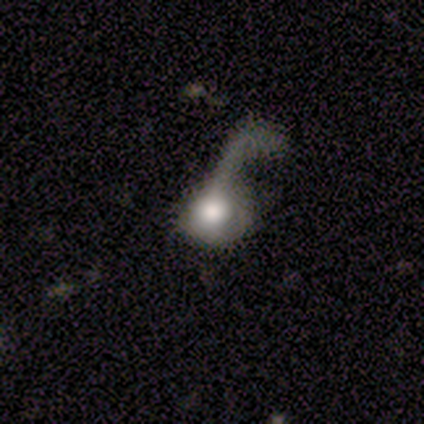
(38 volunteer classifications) This is likely a smooth galaxy (76%). How rounded: likely round (66%). Merging: likely major disturbance (71%).